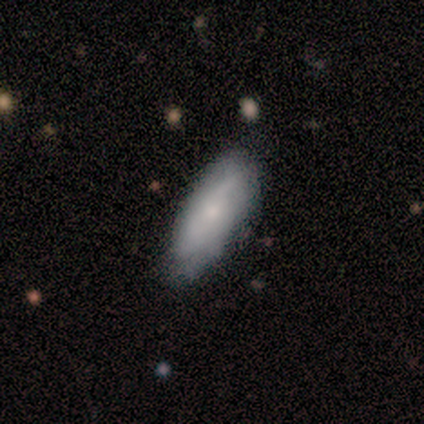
Volunteers were most divided on "bar" (2-way tie): weak: 50%, no: 50%, strong: 0%; "spiral arms" (2-way tie): yes: 50%, no: 50%. More confident: spiral winding — tight (100%); spiral arm count — can't tell (100%); bulge size — small (100%); merging — none (100%); edge-on disk — no (67%); smooth or featured — featured or disk (60%).